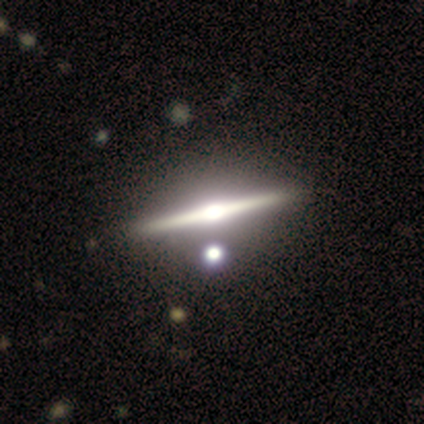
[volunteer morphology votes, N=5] featured or disk 100%, smooth 0%, star or artifact 0%. Down the decision tree: edge-on disk — yes (100%); edge-on bulge — rounded (100%); merging — none (100%).